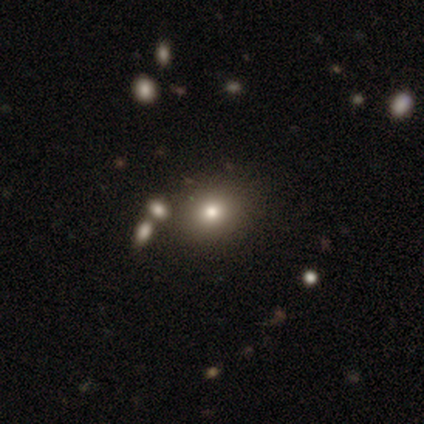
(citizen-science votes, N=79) This is likely a smooth galaxy (78%). How rounded: likely round (79%). Merging: marginally none (35%).